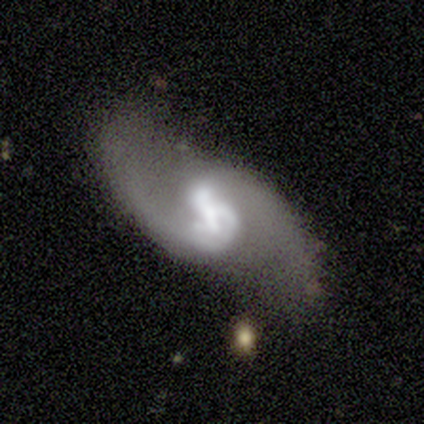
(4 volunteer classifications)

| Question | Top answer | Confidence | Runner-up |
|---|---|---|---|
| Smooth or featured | featured or disk | 75% | star or artifact (25%) |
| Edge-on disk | no | 100% | — |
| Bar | weak | 67% | strong (33%) |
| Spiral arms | yes | 100% | — |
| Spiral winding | loose | 100% | — |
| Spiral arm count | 2 | 100% | — |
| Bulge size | large | 67% | moderate (33%) |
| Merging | none | 100% | — |